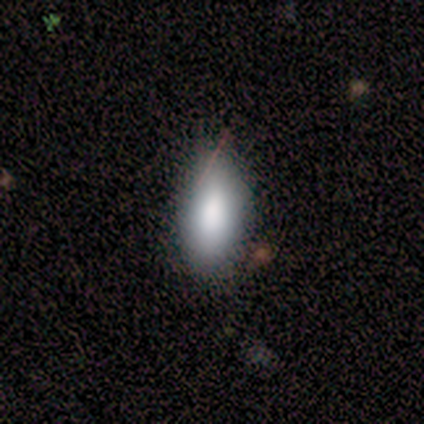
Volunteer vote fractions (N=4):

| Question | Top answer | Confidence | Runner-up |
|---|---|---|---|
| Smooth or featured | smooth | 50% | tied: featured or disk (50%) |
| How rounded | in between | 100% | — |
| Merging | minor disturbance | 50% | none (25%) |